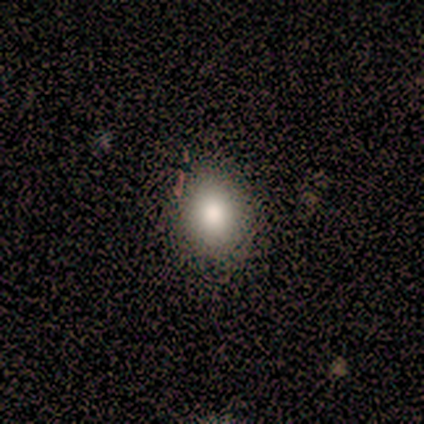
Smooth or featured: smooth — 75% (featured or disk — 12%)
How rounded: round — 83% (in between — 17%)
Merging: none — 100%